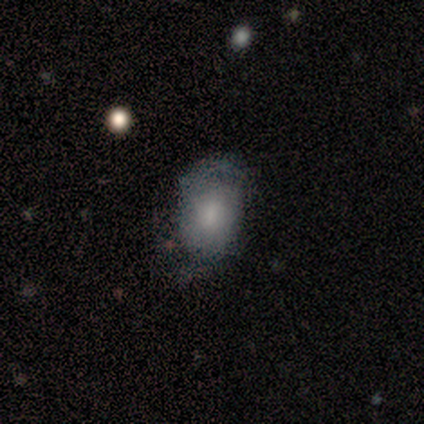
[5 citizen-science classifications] This is clearly a smooth galaxy (80%). How rounded: likely in between (75%). Merging: marginally none (40%).